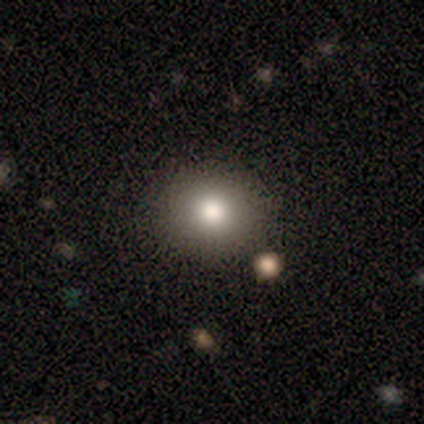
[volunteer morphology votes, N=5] Q: Smooth or featured?
A: smooth (60%); runner-up: featured or disk (20%)
Q: How rounded?
A: round (100%)
Q: Merging?
A: none (100%)